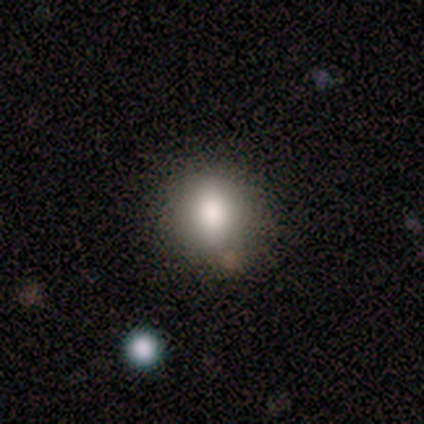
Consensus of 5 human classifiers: smooth_or_featured: smooth (p=0.60) [alt: featured or disk p=0.20]
how_rounded: round (p=0.67) [alt: in between p=0.33]
merging: none (p=1.00)